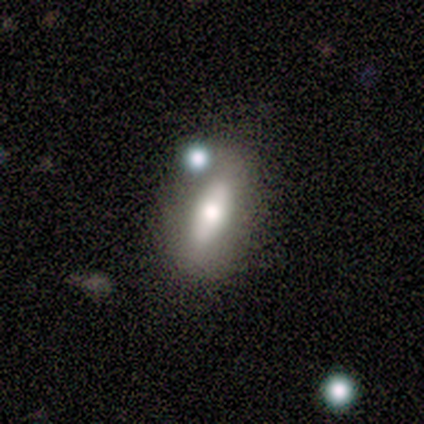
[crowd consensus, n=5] This appears to be a smooth galaxy with no disk features (60%) that is in between round and cigar-shaped (67%). Merging: none (50%).